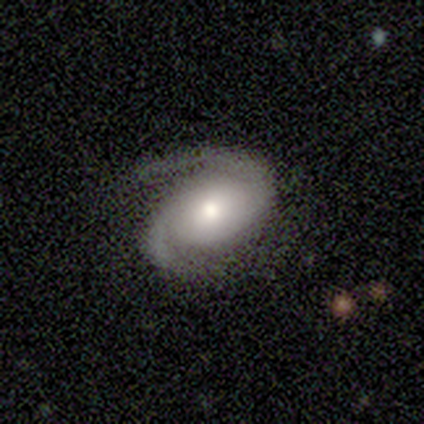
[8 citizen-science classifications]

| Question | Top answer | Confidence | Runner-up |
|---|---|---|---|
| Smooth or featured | featured or disk | 75% | smooth (25%) |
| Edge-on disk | no | 100% | — |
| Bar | no | 83% | weak (17%) |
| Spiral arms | yes | 100% | — |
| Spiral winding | medium | 67% | tight (33%) |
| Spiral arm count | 2 | 100% | — |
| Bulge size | moderate | 67% | small (33%) |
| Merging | none | 88% | major disturbance (12%) |